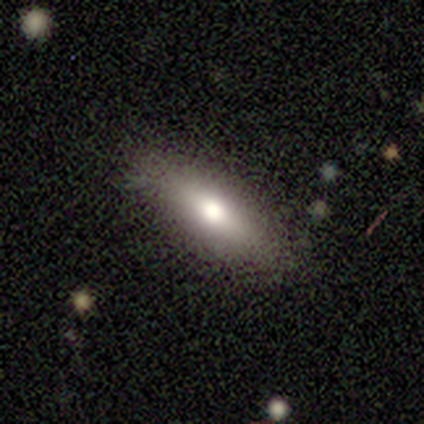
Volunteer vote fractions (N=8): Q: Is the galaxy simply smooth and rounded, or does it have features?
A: smooth — 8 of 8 (100%).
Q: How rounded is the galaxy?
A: in between — 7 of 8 (88%).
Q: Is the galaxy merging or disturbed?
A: none — 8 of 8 (100%).